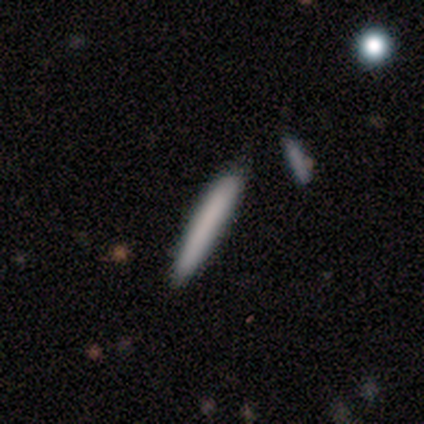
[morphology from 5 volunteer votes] Smooth or featured?
  - smooth: 100% *
  - featured or disk: 0%
  - star or artifact: 0%
How rounded?
  - cigar-shaped: 100% *
  - round: 0%
  - in between: 0%
Merging?
  - none: 40% * (tied)
  - merger: 40% * (tied)
  - minor disturbance: 20%
  - major disturbance: 0%